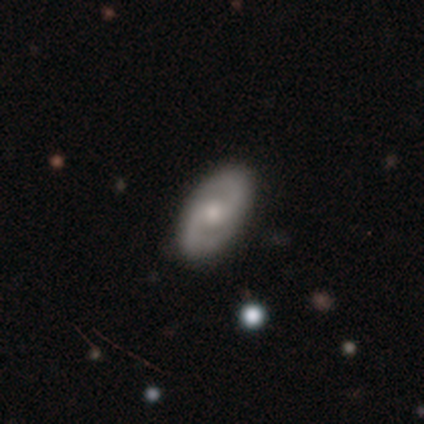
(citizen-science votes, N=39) A featured or disk galaxy (87%) with no bar (53%), 2 (97%) medium (58%) spiral arms (97%) and a moderate central bulge (68%). Merging: none (84%).